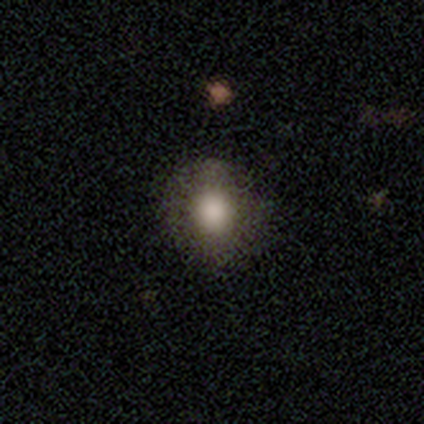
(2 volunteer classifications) A smooth galaxy with no disk features (100%) that is in between round and cigar-shaped (100%).

Vote fractions:
- Smooth or featured? smooth: 100% / featured or disk: 0% / star or artifact: 0%
- How rounded? in between: 100% / round: 0% / cigar-shaped: 0%
- Merging? none: 50% (tied) / minor disturbance: 50% (tied) / major disturbance: 0% / merger: 0%